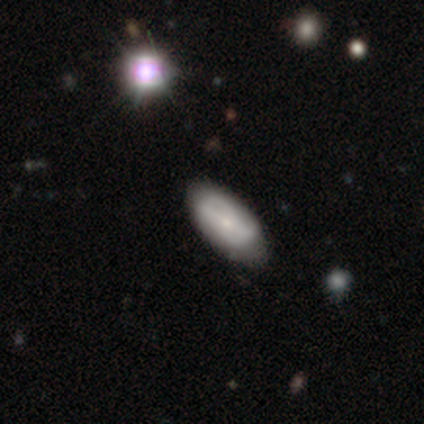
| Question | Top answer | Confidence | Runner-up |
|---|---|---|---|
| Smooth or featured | featured or disk | 60% | smooth (40%) |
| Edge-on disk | no | 67% | yes (33%) |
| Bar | weak | 50% | tied: no (50%) |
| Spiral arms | yes | 50% | tied: no (50%) |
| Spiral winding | medium | 100% | — |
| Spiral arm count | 2 | 100% | — |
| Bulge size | moderate | 50% | tied: small (50%) |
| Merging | none | 80% | minor disturbance (20%) |